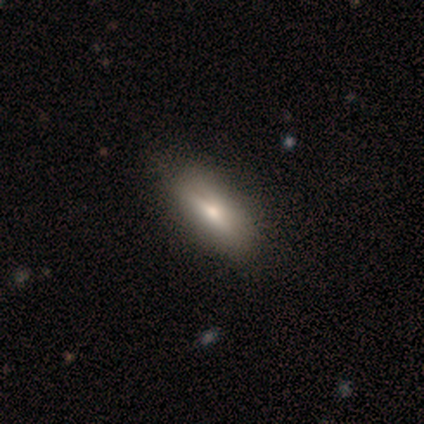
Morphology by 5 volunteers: Volunteers were most divided on "smooth or featured" (2-way tie): smooth: 40%, star or artifact: 40%, featured or disk: 20%; "how rounded" (2-way tie): in between: 50%, cigar-shaped: 50%, round: 0%. More confident: merging — none (100%).